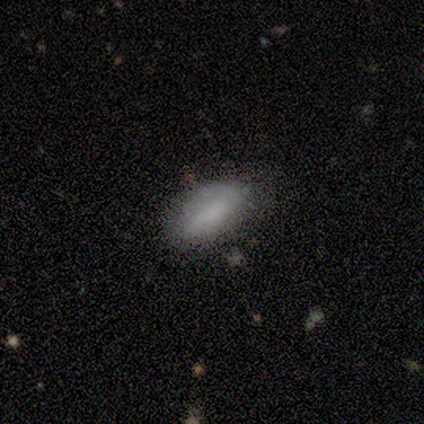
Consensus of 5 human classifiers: A smooth galaxy with no disk features (80%) that is in between round and cigar-shaped (100%).

Vote fractions:
- Smooth or featured? smooth: 80% / featured or disk: 20% / star or artifact: 0%
- How rounded? in between: 100% / round: 0% / cigar-shaped: 0%
- Merging? minor disturbance: 80% / none: 20% / major disturbance: 0% / merger: 0%